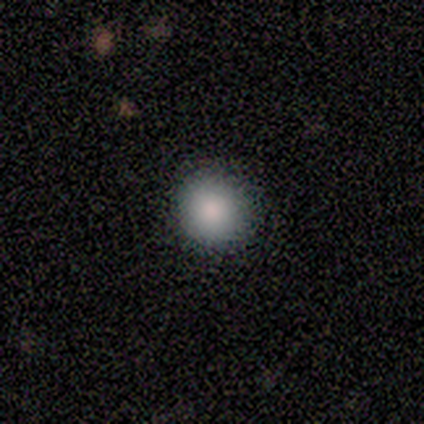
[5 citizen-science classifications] Overall: smooth (100%). How rounded: round (100%). Merging: none (80%).